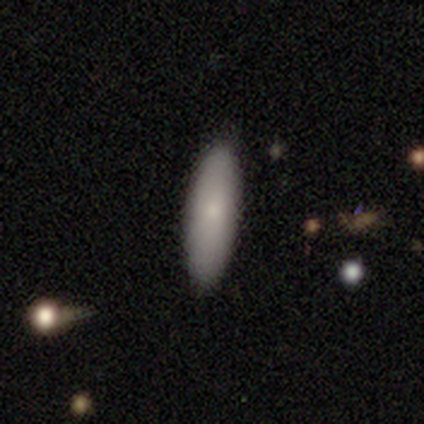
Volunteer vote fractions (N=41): A smooth galaxy with no disk features (88%) that is cigar-shaped (56%). Merging: none (90%).